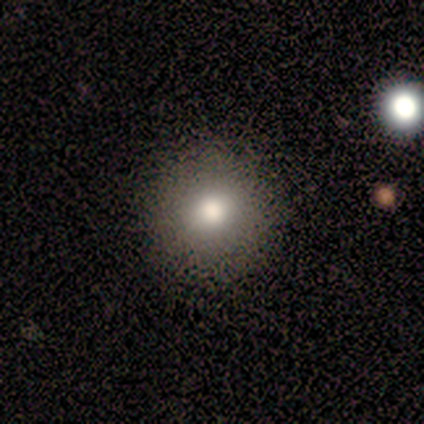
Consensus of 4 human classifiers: Overall: smooth (75%). How rounded: round (100%). Merging: none (100%).